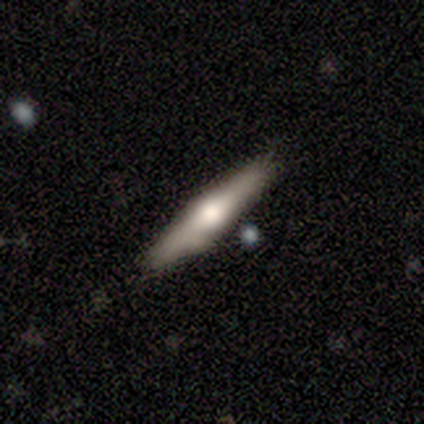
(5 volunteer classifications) Overall: smooth (100%). How rounded: cigar-shaped (100%). Merging: none (80%).